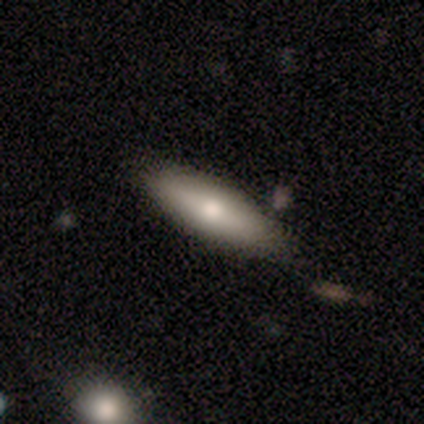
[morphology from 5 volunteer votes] This is likely a smooth galaxy (60%). How rounded: likely in between (67%). Merging: clearly none (100%).